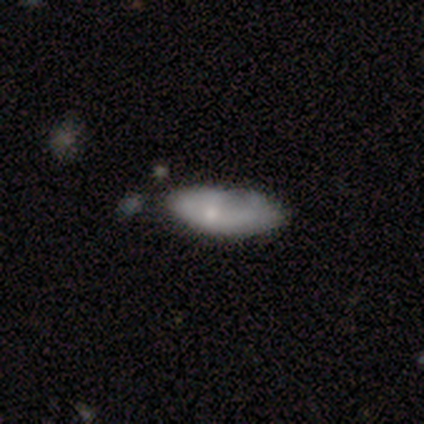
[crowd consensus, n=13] Smooth or featured: smooth — 69% (featured or disk — 23%)
How rounded: in between — 78% (cigar-shaped — 22%)
Merging: none — 67% (minor disturbance — 25%)